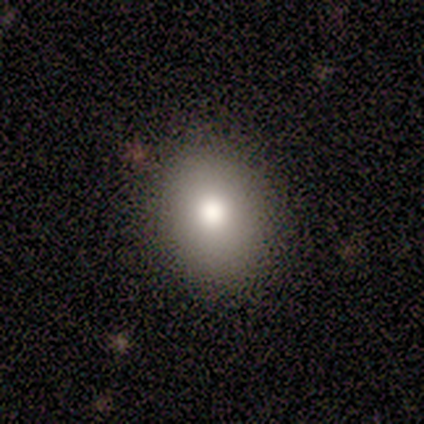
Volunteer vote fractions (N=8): smooth_or_featured: smooth (p=0.62) [alt: featured or disk p=0.25]
how_rounded: in between (p=1.00)
merging: none (p=1.00)